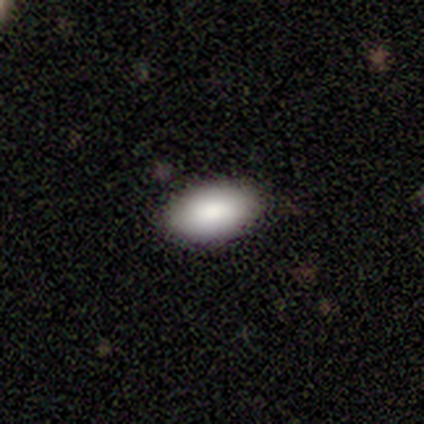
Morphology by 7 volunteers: smooth-or-featured: smooth: 100% | featured or disk: 0% | star or artifact: 0%
  how-rounded: in between: 86% | round: 14% | cigar-shaped: 0%
  merging: none: 100% | minor disturbance: 0% | major disturbance: 0% | merger: 0%